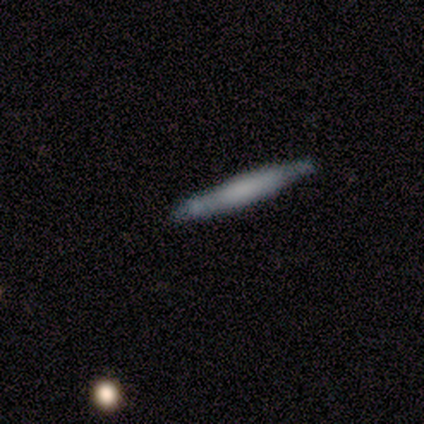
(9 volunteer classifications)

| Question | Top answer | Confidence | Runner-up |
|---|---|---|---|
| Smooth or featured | smooth | 56% | featured or disk (33%) |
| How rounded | cigar-shaped | 100% | — |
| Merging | none | 88% | minor disturbance (12%) |